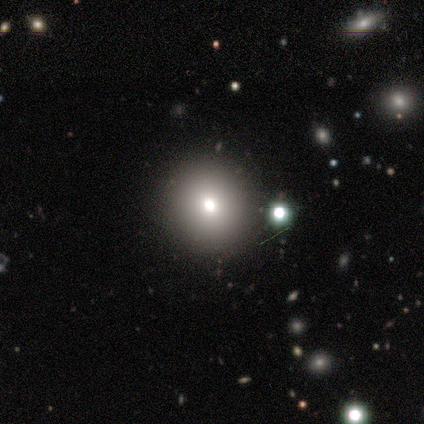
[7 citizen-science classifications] smooth 57%, star or artifact 29%, featured or disk 14%. Down the decision tree: how rounded — round (100%); merging — none (80%).